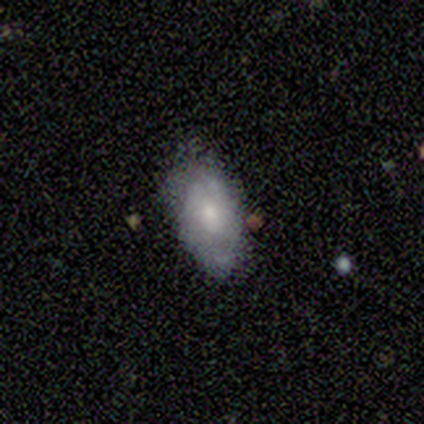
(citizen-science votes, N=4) Smooth or featured? 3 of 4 (75%) said smooth. How rounded? 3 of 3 (100%) said in between. Merging? 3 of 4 (75%) said none.